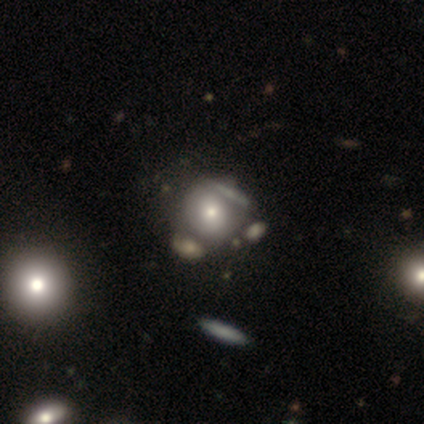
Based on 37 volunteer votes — smooth-or-featured: smooth: 59% | featured or disk: 32% | star or artifact: 8%
  how-rounded: round: 95% | in between: 5% | cigar-shaped: 0%
  merging: none: 59% | merger: 24% | minor disturbance: 12% | major disturbance: 6%